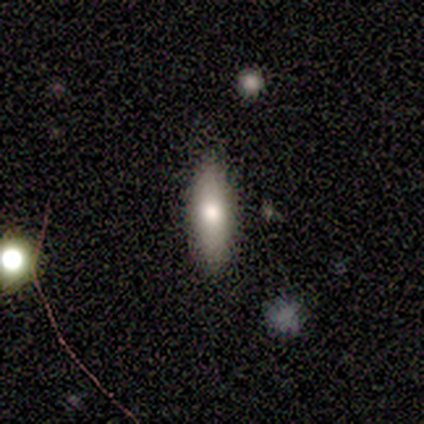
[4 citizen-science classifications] Q: Smooth or featured?
A: smooth (100%)
Q: How rounded?
A: cigar-shaped (75%); runner-up: in between (25%)
Q: Merging?
A: none (100%)